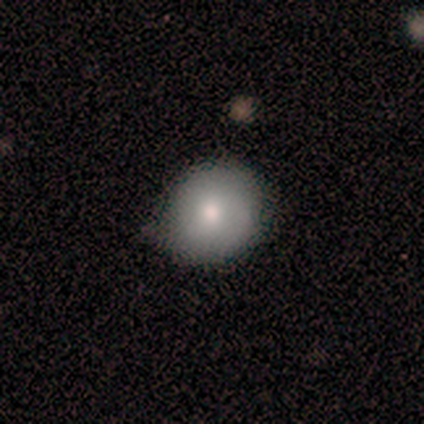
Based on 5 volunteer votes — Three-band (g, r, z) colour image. It shows a smooth galaxy with no disk features (60%) that is round (100%). Merging: none (60%).